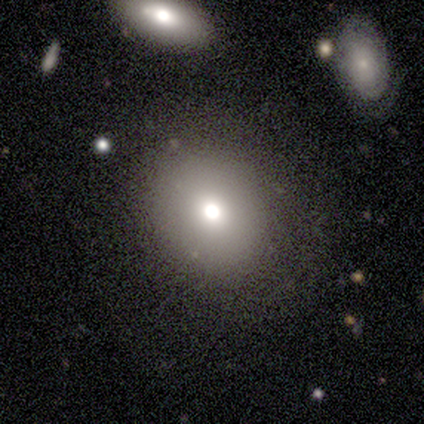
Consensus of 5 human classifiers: Smooth or featured: smooth — 60% (star or artifact — 40%)
How rounded: round — 67% (in between — 33%)
Merging: none — 67% (merger — 33%)